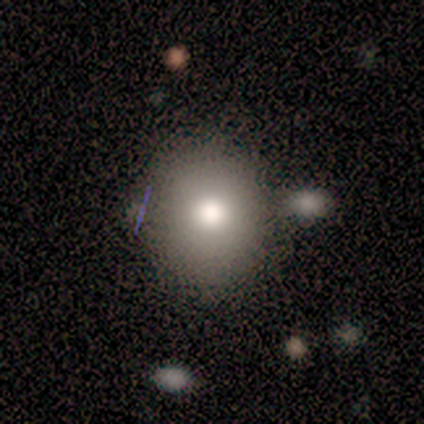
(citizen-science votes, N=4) Morphology: type=smooth (75%); roundness=round (100%); merging=none (50%, tied with minor disturbance).